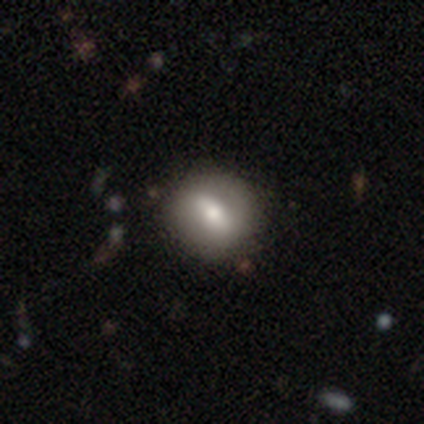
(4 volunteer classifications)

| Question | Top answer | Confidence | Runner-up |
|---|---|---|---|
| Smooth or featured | featured or disk | 75% | smooth (25%) |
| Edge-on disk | no | 100% | — |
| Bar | weak | 67% | strong (33%) |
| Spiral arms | no | 100% | — |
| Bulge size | moderate | 100% | — |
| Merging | none | 75% | minor disturbance (25%) |